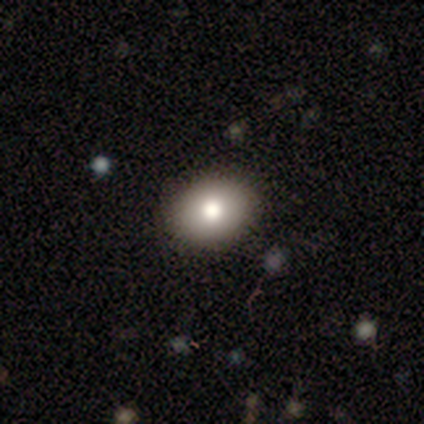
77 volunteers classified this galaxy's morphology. smooth 84%, featured or disk 9%, star or artifact 6%. Down the decision tree: how rounded — in between (60%); merging — none (47%).